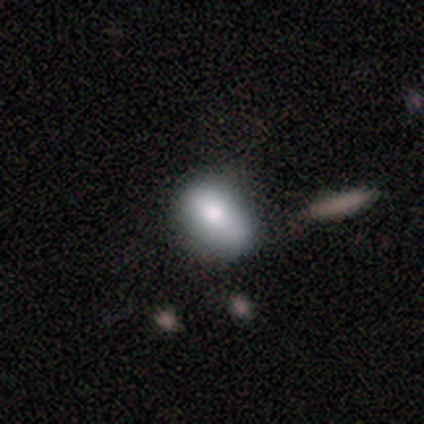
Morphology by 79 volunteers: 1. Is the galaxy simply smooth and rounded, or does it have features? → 85% smooth, 8% featured or disk, 8% star or artifact.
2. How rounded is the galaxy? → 78% in between, 21% round, 1% cigar-shaped.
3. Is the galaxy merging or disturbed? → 25% none, 14% minor disturbance, 12% merger, 5% major disturbance.